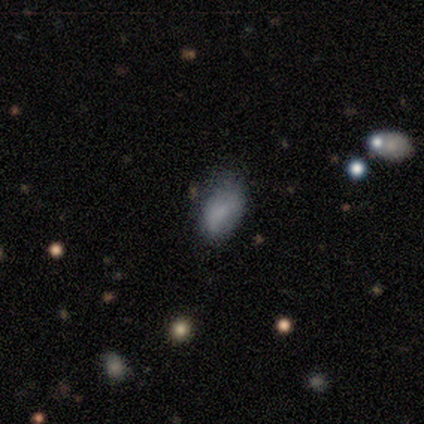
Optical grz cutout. It shows a smooth galaxy with no disk features (100%) that is in between round and cigar-shaped (80%). Merging: none (60%).